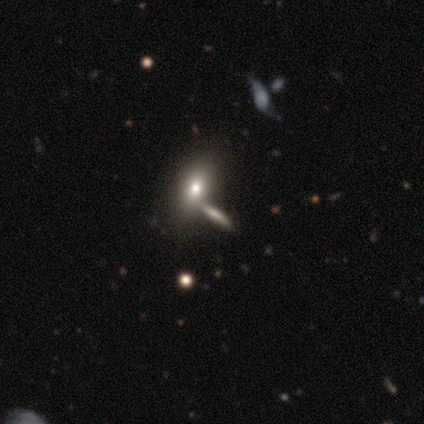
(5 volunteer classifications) This is likely a smooth galaxy (60%). How rounded: likely in between (67%). Merging: possibly none (50%, tied with minor disturbance).